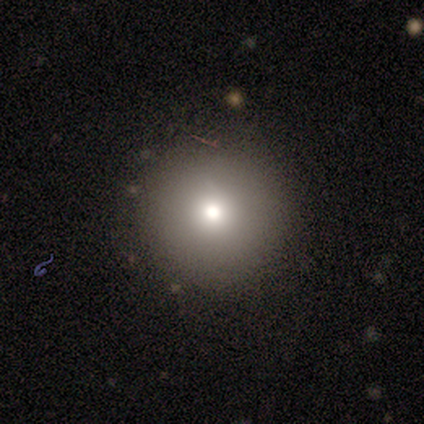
A smooth galaxy with no disk features (75%) that is round (100%). Merging: none (100%).